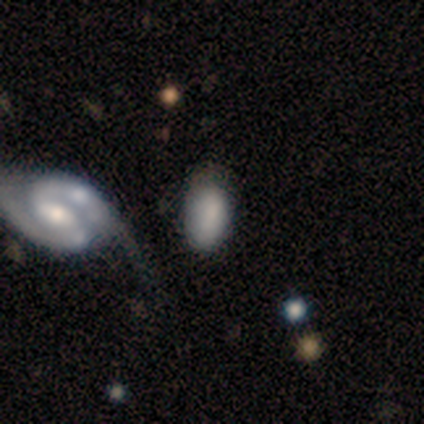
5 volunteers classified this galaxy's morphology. This is marginally a smooth galaxy (40%, tied with star or artifact). How rounded: possibly round (50%, tied with in between). Merging: likely none (67%).